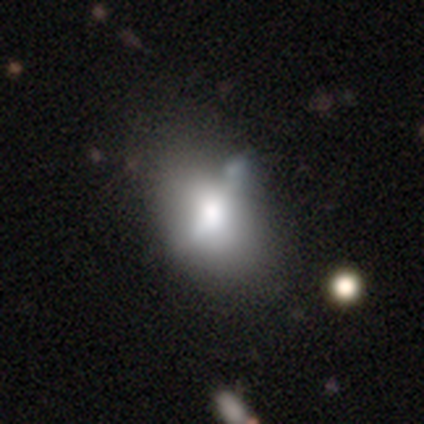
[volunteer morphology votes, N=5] Q: Smooth or featured?
A: smooth (80%); runner-up: featured or disk (20%)
Q: How rounded?
A: in between (75%); runner-up: round (25%)
Q: Merging?
A: none (60%); runner-up: minor disturbance (40%)